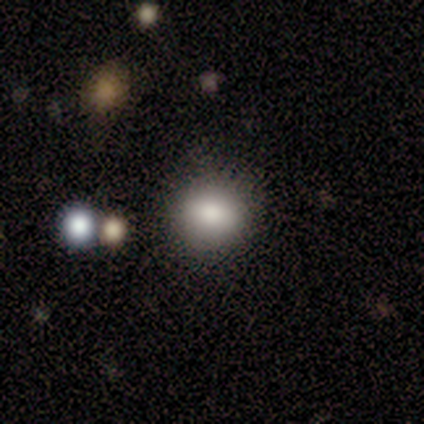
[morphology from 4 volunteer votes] Overall: smooth (75%). How rounded: round (100%). Merging: none (67%; minor disturbance 33%).